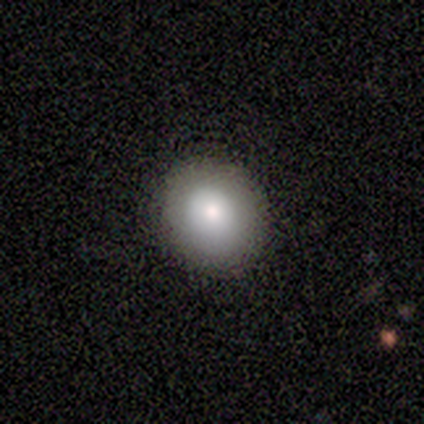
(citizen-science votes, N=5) Overall: smooth (100%). How rounded: round (100%). Merging: none (100%).